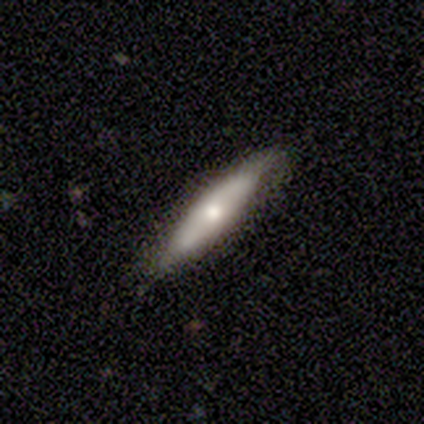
Volunteers were most divided on "smooth or featured": featured or disk: 60%, smooth: 40%, star or artifact: 0%. More confident: edge-on disk — yes (100%); merging — none (80%); edge-on bulge — rounded (67%).